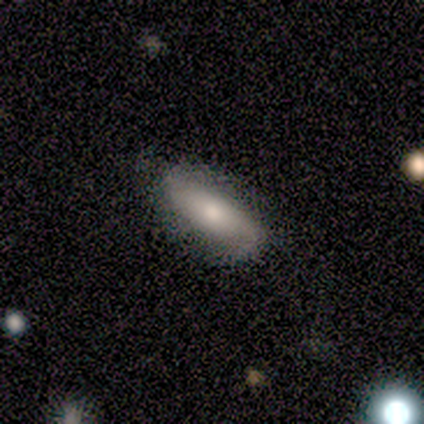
Q: Smooth or featured?
A: smooth (57%); runner-up: featured or disk (32%)
Q: How rounded?
A: in between (65%); runner-up: cigar-shaped (30%)
Q: Merging?
A: none (81%); runner-up: minor disturbance (11%)